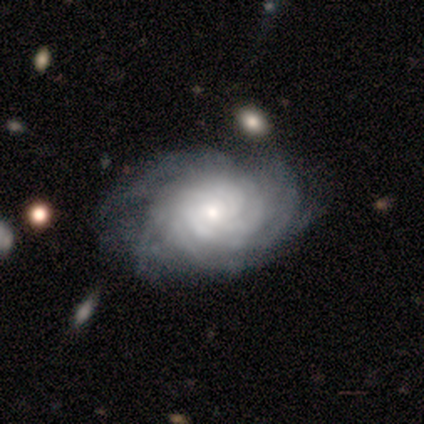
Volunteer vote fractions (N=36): Smooth or featured: featured or disk — 86% (smooth — 11%)
Edge-on disk: no — 97% (yes — 3%)
Bar: no — 80% (weak — 17%)
Spiral arms: yes — 97% (no — 3%)
Spiral winding: tight — 83% (medium — 14%)
Spiral arm count: more than 4 — 59% (can't tell — 24%)
Bulge size: small — 47% (moderate — 40%)
Merging: none — 40% (minor disturbance — 6%)